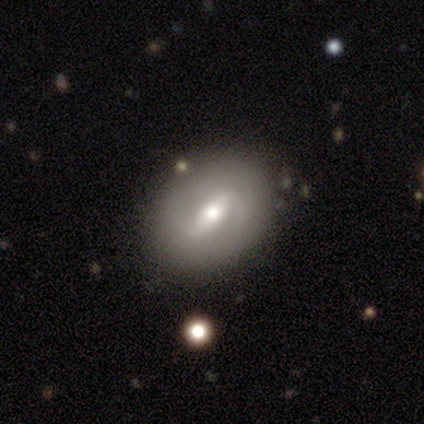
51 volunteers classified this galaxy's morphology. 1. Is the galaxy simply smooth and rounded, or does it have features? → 69% featured or disk, 24% smooth, 8% star or artifact.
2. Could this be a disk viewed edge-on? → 91% no, 9% yes.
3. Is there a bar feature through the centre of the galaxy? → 50% strong, 41% weak, 9% no.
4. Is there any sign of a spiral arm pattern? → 62% yes, 38% no.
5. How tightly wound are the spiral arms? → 45% tight, 40% medium, 15% loose.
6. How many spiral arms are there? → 75% 2, 20% can't tell, 5% more than 4, 0% 1, 0% 3, 0% 4.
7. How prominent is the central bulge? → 78% moderate, 9% large, 9% small, 3% none, 0% dominant.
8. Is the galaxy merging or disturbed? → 85% none, 11% minor disturbance, 2% major disturbance, 2% merger.